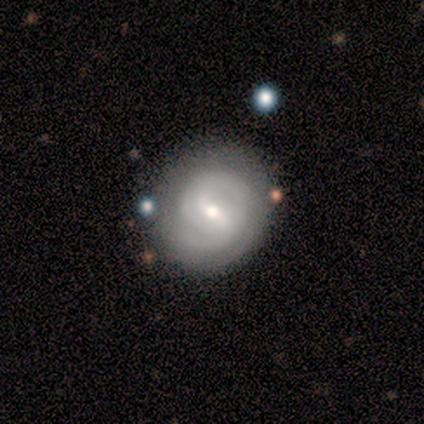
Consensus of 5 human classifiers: featured or disk 100%, smooth 0%, star or artifact 0%. Down the decision tree: edge-on disk — no (100%); bar — strong (40%, tied with weak); spiral arms — yes (100%); spiral arm count — 2 (60%); spiral winding — tight (40%, tied with medium); bulge size — small (60%); merging — none (60%).